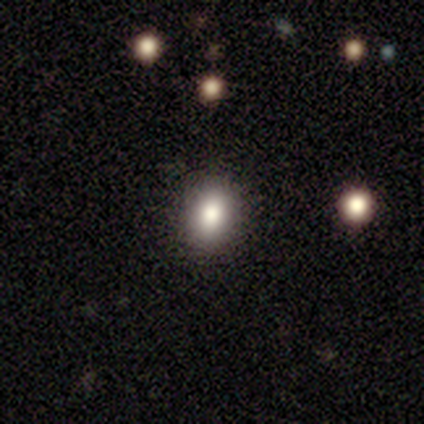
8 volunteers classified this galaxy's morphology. This appears to be a smooth galaxy with no disk features (88%) that is in between round and cigar-shaped (71%). Merging: none (100%).